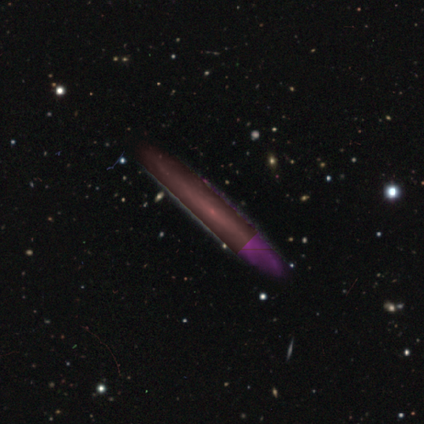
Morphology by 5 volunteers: A featured or disk galaxy (40%, tied with star or artifact) viewed edge-on (100%) with no central bulge (50%, tied with rounded).

Vote fractions:
- Smooth or featured? featured or disk: 40% (tied) / star or artifact: 40% (tied) / smooth: 20%
- Edge-on disk? yes: 100% / no: 0%
- Edge-on bulge? none: 50% (tied) / rounded: 50% (tied) / boxy: 0%
- Merging? none: 67% / merger: 33% / minor disturbance: 0% / major disturbance: 0%